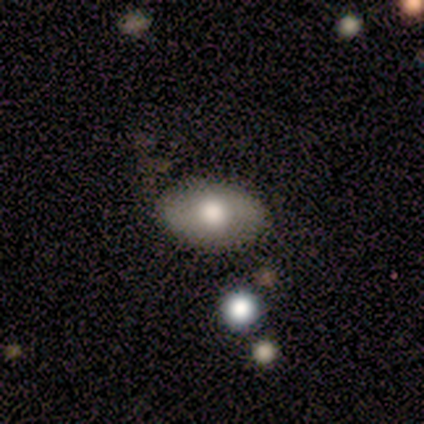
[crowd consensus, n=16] This is clearly a smooth galaxy (88%). How rounded: clearly in between (100%). Merging: clearly none (87%).